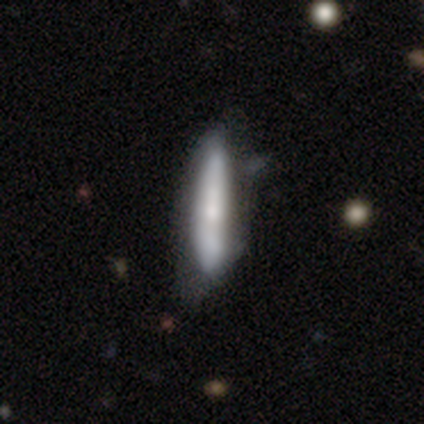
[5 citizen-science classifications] smooth_or_featured: featured or disk (p=0.60) [alt: smooth p=0.40]
disk_edge_on: no (p=0.67) [alt: yes p=0.33]
bar: no (p=1.00)
has_spiral_arms: yes (p=0.50) [tied with: no p=0.50]
spiral_winding: tight (p=1.00)
spiral_arm_count: can't tell (p=1.00)
bulge_size: moderate (p=0.50) [tied with: small p=0.50]
merging: none (p=0.60) [alt: minor disturbance p=0.40]